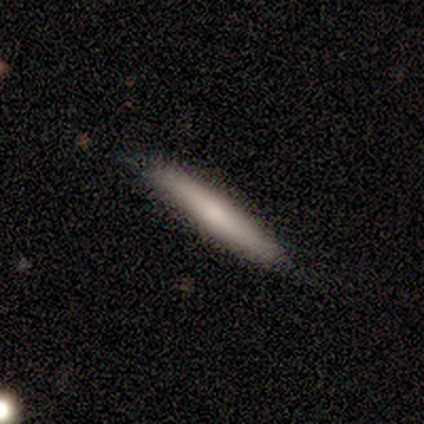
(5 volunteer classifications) Smooth or featured? smooth (60%)
How rounded? cigar-shaped (100%)
Merging? none (75%)